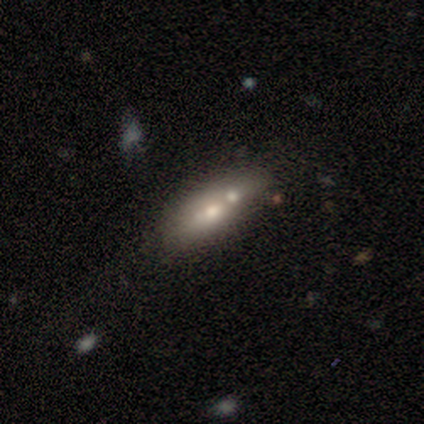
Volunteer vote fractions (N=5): smooth-or-featured: smooth: 60% | featured or disk: 20% | star or artifact: 20%
  how-rounded: in between: 100% | round: 0% | cigar-shaped: 0%
  merging: merger: 75% | none: 25% | minor disturbance: 0% | major disturbance: 0%